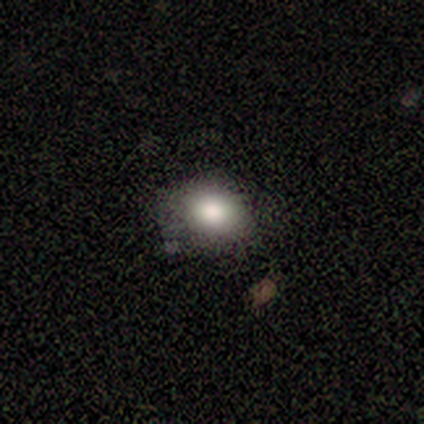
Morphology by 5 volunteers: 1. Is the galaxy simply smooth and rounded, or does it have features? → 100% smooth, 0% featured or disk, 0% star or artifact.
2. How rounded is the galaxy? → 60% round, 40% in between, 0% cigar-shaped.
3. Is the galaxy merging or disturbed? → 80% none, 20% minor disturbance, 0% major disturbance, 0% merger.